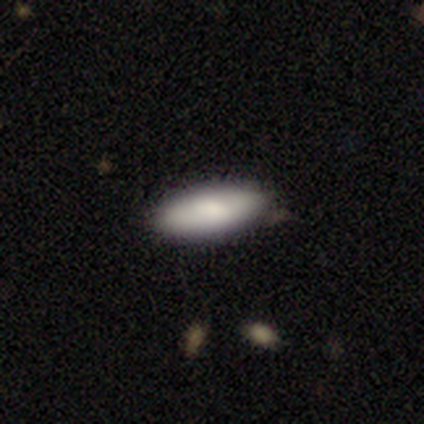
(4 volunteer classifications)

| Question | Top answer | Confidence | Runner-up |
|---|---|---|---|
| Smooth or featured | smooth | 75% | featured or disk (25%) |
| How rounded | in between | 100% | — |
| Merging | none | 100% | — |